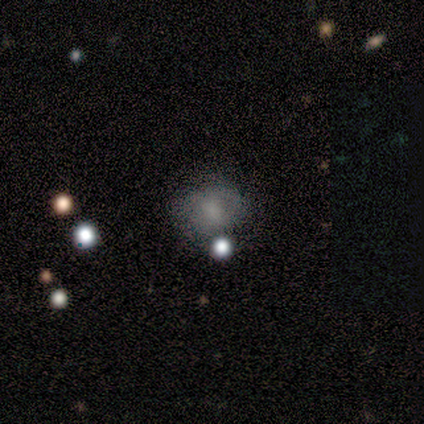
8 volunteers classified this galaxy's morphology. Overall: smooth (75%). How rounded: in between (67%; round 33%). Merging: none (62%; minor disturbance 25%).